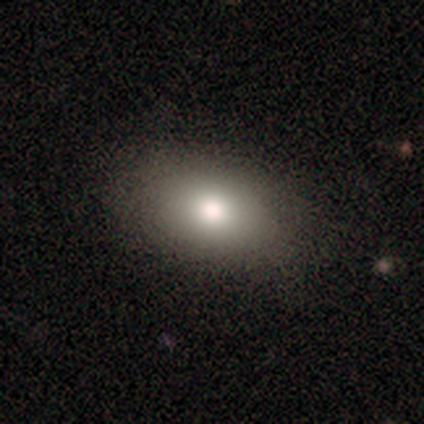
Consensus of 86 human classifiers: A smooth galaxy with no disk features (79%) that is in between round and cigar-shaped (81%). Merging: none (91%).